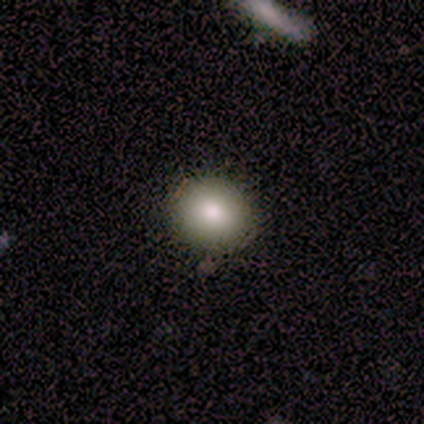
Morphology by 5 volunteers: Volunteers were most divided on "merging": none: 80%, minor disturbance: 20%, major disturbance: 0%, merger: 0%. More confident: smooth or featured — smooth (100%); how rounded — round (100%).